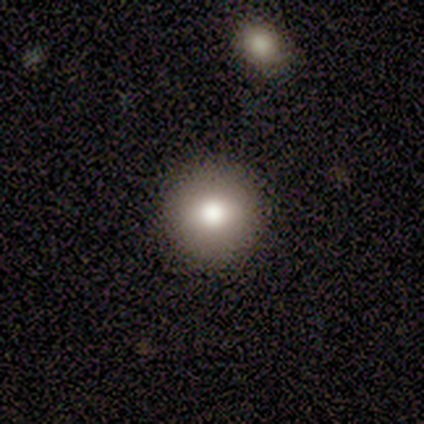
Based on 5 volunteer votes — Q: Smooth or featured?
A: featured or disk (60%); runner-up: smooth (40%)
Q: Edge-on disk?
A: no (67%); runner-up: yes (33%)
Q: Bar?
A: no (100%)
Q: Spiral arms?
A: no (100%)
Q: Bulge size?
A: large (50%); tied with: moderate (50%)
Q: Merging?
A: none (80%); runner-up: minor disturbance (20%)